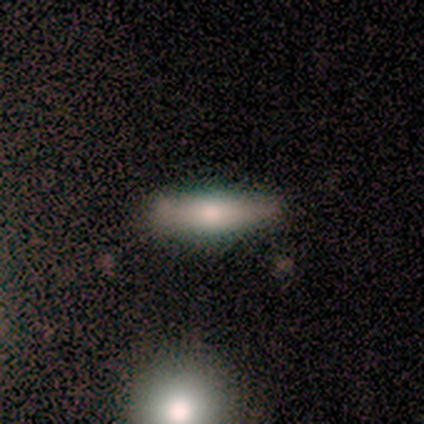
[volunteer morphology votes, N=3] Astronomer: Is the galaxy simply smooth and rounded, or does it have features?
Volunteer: smooth — 100%.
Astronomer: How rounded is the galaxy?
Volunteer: cigar-shaped — 67%.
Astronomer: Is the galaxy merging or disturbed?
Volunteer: none — 100%.